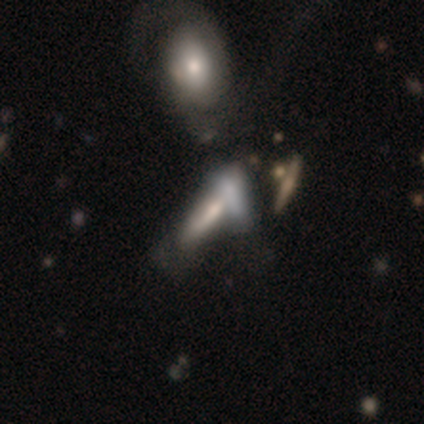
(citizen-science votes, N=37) smooth_or_featured: smooth (p=0.46) [tied with: featured or disk p=0.46]
how_rounded: cigar-shaped (p=0.76) [alt: in between p=0.24]
merging: merger (p=0.56)